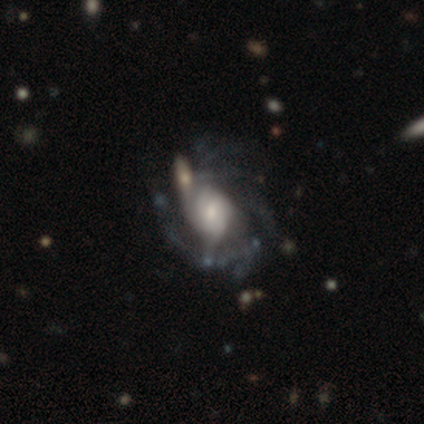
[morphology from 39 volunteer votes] Overall: featured or disk (92%). Edge-on disk: no (92%). Bar: no (67%). Spiral arms: yes (79%). Spiral arm count: can't tell (54%; 2 15%). Spiral winding: medium (50%; tight 35%). Bulge size: small (45%; moderate 33%). Merging: none (49%; merger 22%).